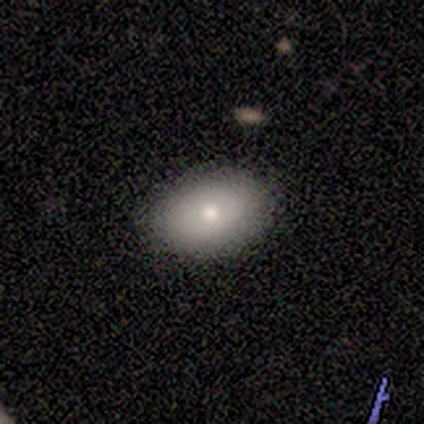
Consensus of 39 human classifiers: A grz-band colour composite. It shows a smooth galaxy with no disk features (77%) that is in between round and cigar-shaped (80%). Merging: none (89%).